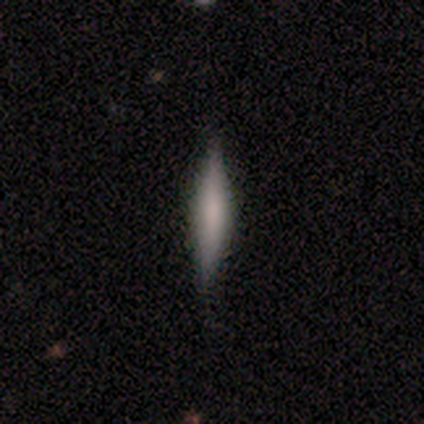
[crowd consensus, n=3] Smooth or featured? 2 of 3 (67%) said featured or disk. Edge-on disk? 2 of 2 (100%) said yes. Edge-on bulge? 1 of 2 (50%, tied with rounded) said none. Merging? 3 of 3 (100%) said none.